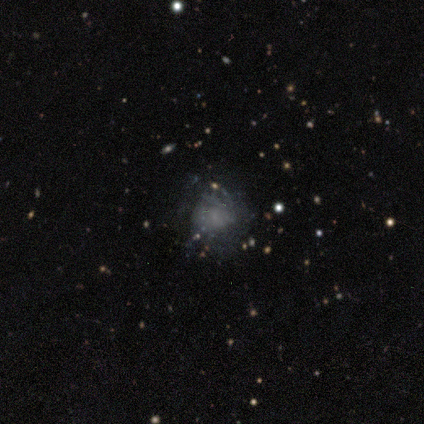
smooth-or-featured: smooth: 40% (tied) | featured or disk: 40% (tied) | star or artifact: 20%
  how-rounded: round: 100% | in between: 0% | cigar-shaped: 0%
  merging: minor disturbance: 50% | none: 25% | major disturbance: 25% | merger: 0%